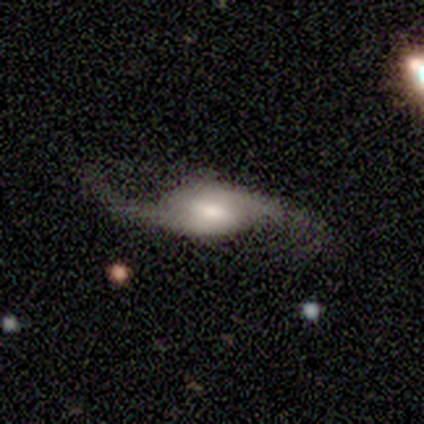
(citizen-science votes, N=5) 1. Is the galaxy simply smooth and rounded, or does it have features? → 100% featured or disk, 0% smooth, 0% star or artifact.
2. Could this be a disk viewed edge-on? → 100% no, 0% yes.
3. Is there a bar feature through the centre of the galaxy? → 60% no, 40% strong, 0% weak.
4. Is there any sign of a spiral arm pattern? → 100% yes, 0% no.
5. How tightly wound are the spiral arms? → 100% loose, 0% tight, 0% medium.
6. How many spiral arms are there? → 100% 2, 0% 1, 0% 3, 0% 4, 0% more than 4, 0% can't tell.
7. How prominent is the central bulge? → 60% large, 20% moderate, 20% small, 0% dominant, 0% none.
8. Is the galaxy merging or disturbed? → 80% none, 20% major disturbance, 0% minor disturbance, 0% merger.